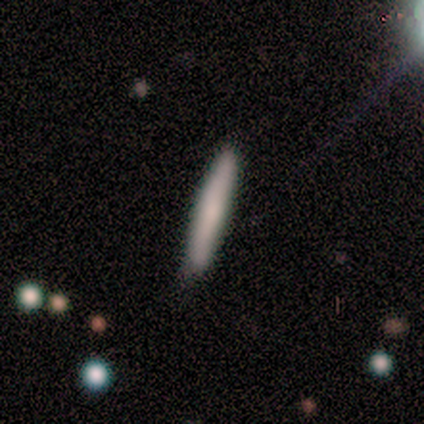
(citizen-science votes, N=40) smooth_or_featured: smooth (p=0.75) [alt: featured or disk p=0.20]
how_rounded: cigar-shaped (p=0.93) [alt: round p=0.03]
merging: none (p=0.89) [alt: minor disturbance p=0.11]